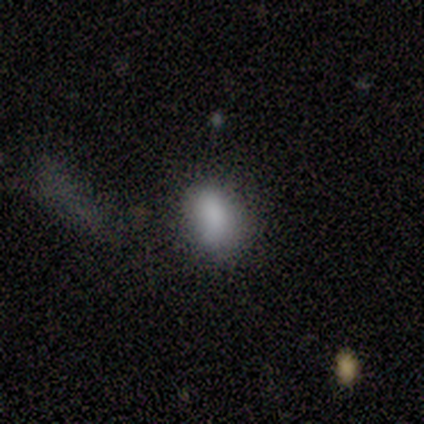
Overall: smooth (100%). How rounded: in between (75%). Merging: none (100%).